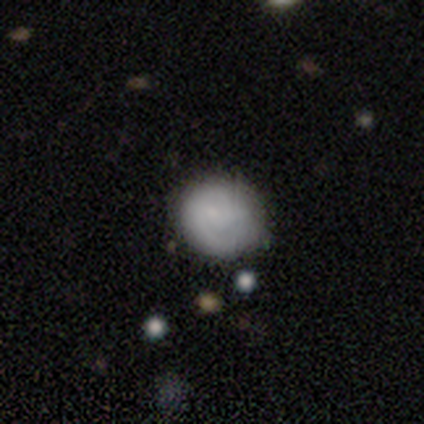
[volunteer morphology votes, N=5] This is likely a smooth galaxy (60%). How rounded: clearly round (100%). Merging: clearly none (80%).